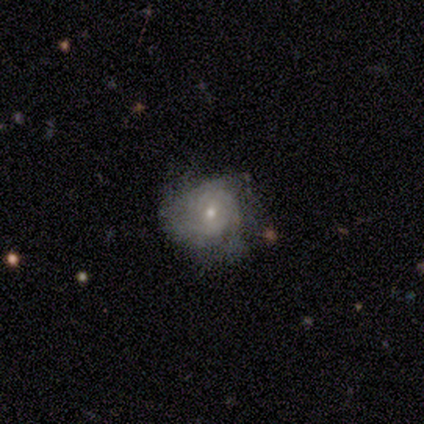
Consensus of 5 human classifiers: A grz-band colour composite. It shows a featured or disk galaxy (60%) with a weak bar (67%), tight (50%, tied with medium) spiral arms (67%) and a small central bulge (100%). Merging: none (60%).